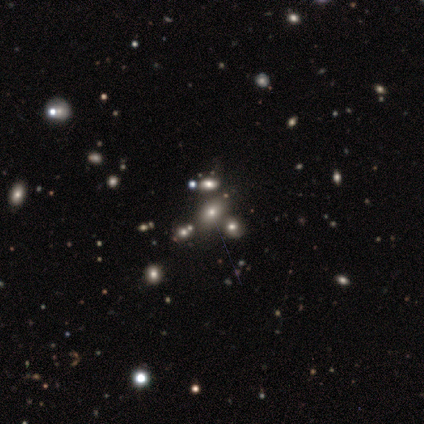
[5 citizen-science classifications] Q: Smooth or featured?
A: smooth (60%); runner-up: star or artifact (40%)
Q: How rounded?
A: in between (67%); runner-up: round (33%)
Q: Merging?
A: none (100%)